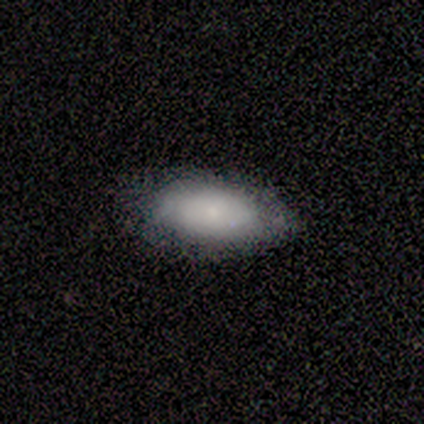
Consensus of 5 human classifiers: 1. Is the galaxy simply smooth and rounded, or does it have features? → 80% smooth, 20% star or artifact, 0% featured or disk.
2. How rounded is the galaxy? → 100% in between, 0% round, 0% cigar-shaped.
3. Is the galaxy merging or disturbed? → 100% none, 0% minor disturbance, 0% major disturbance, 0% merger.